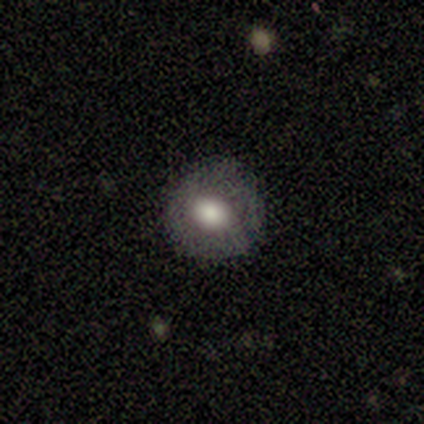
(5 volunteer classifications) Morphology: type=smooth (60%); roundness=round (67%); merging=none (50%, tied with major disturbance).